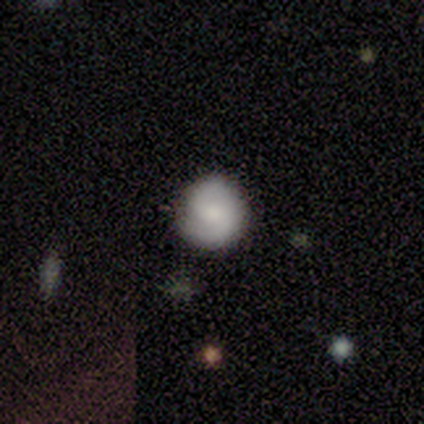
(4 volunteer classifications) smooth 100%, featured or disk 0%, star or artifact 0%. Down the decision tree: how rounded — round (75%); merging — none (75%).